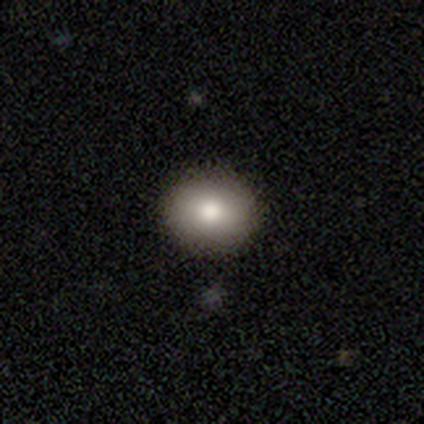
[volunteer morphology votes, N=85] Smooth or featured? smooth (78%)
How rounded? round (59%)
Merging? none (95%)